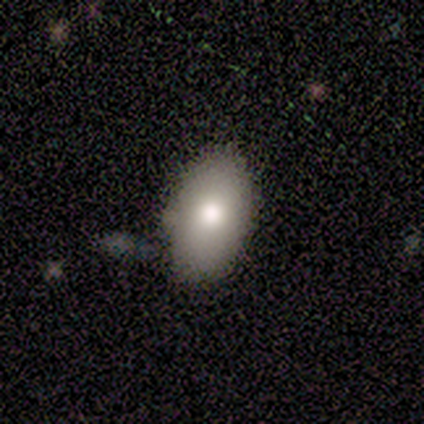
Smooth or featured?
  - smooth: 60% *
  - featured or disk: 20%
  - star or artifact: 20%
How rounded?
  - in between: 100% *
  - round: 0%
  - cigar-shaped: 0%
Merging?
  - none: 75% *
  - major disturbance: 25%
  - minor disturbance: 0%
  - merger: 0%